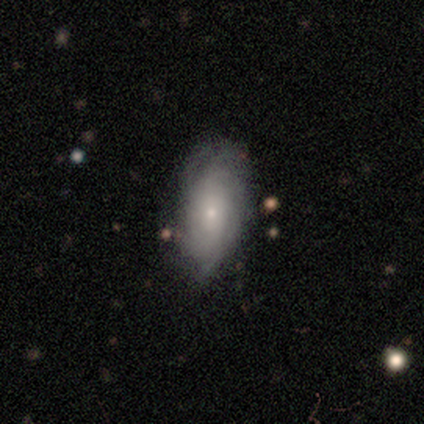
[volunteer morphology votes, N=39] This appears to be a featured or disk galaxy (59%) with no bar (73%), tight (58%) spiral arms (86%) and a small central bulge (86%). Merging: none (62%).